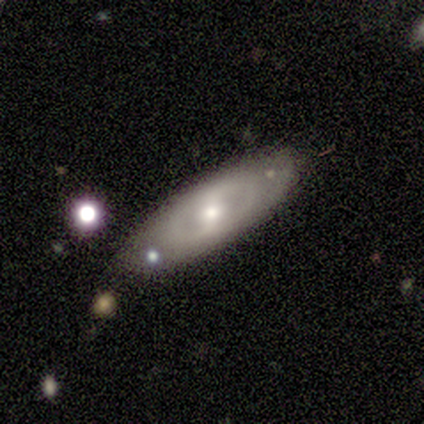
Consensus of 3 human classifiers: Q: Smooth or featured?
A: smooth (67%); runner-up: featured or disk (33%)
Q: How rounded?
A: round (50%); tied with: in between (50%)
Q: Merging?
A: none (67%); runner-up: minor disturbance (33%)